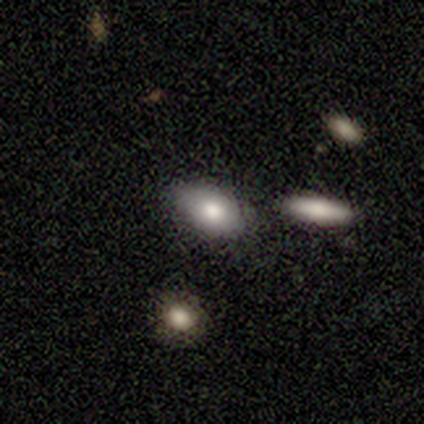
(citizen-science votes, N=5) Volunteers were most divided on "merging": none: 60%, minor disturbance: 40%, major disturbance: 0%, merger: 0%. More confident: how rounded — in between (100%); smooth or featured — smooth (80%).